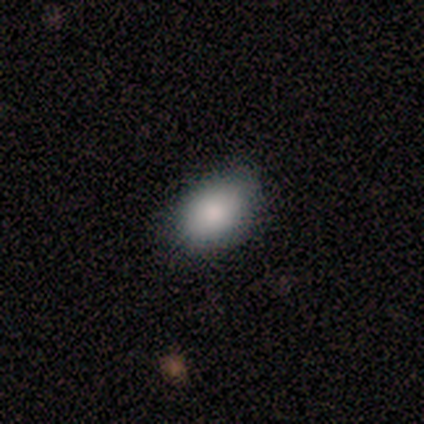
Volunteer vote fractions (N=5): Overall: smooth (80%). How rounded: in between (75%). Merging: none (80%).